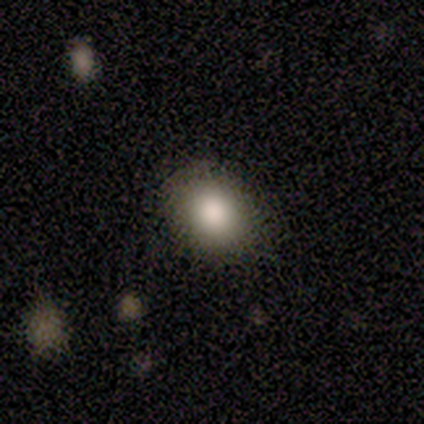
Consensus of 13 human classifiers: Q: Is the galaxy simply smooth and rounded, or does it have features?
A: smooth — 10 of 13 (77%).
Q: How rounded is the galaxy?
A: round — 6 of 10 (60%).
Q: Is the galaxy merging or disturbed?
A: none — 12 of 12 (100%).